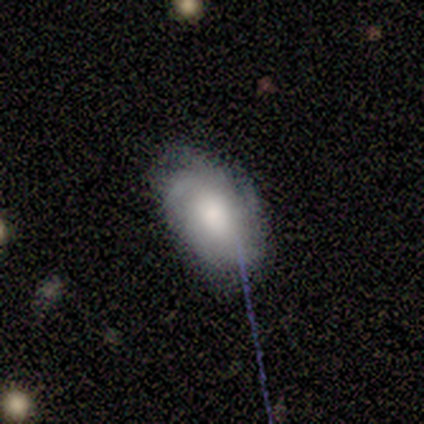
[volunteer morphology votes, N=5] smooth-or-featured: featured or disk: 60% | smooth: 20% | star or artifact: 20%
  disk-edge-on: no: 100% | yes: 0%
    bar: no: 100% | strong: 0% | weak: 0%
    has-spiral-arms: yes: 67% | no: 33%
      spiral-winding: tight: 50% (tied) | medium: 50% (tied) | loose: 0%
      spiral-arm-count: can't tell: 100% | 1: 0% | 2: 0% | 3: 0% | 4: 0% | more than 4: 0%
    bulge-size: moderate: 67% | small: 33% | dominant: 0% | large: 0% | none: 0%
  merging: none: 100% | minor disturbance: 0% | major disturbance: 0% | merger: 0%